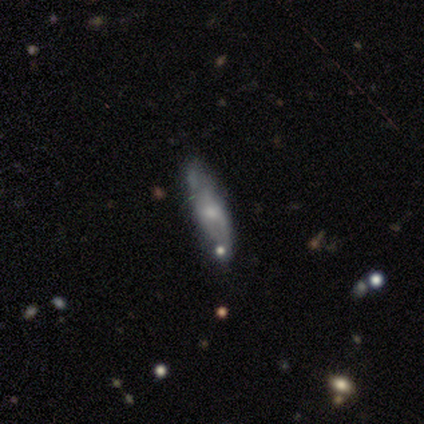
Overall: featured or disk (67%). Edge-on disk: no (75%). Bar: no (100%). Spiral arms: no (67%; yes 33%). Bulge size: small (67%; moderate 33%). Merging: none (40%; minor disturbance 20%).